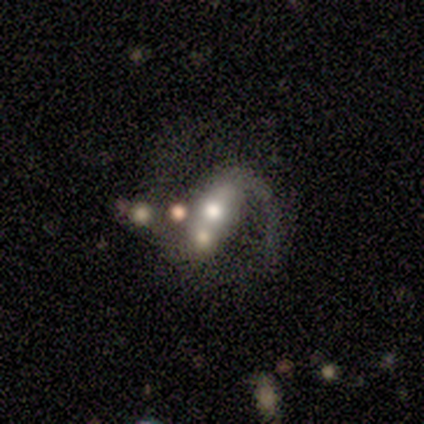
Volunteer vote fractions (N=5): Morphology: type=featured or disk (60%); edge-on=no (100%); bar=strong (67%); spiral arms=yes (100%); winding=medium (67%); arm count=2 (100%); bulge=moderate (100%); merging=merger (60%).